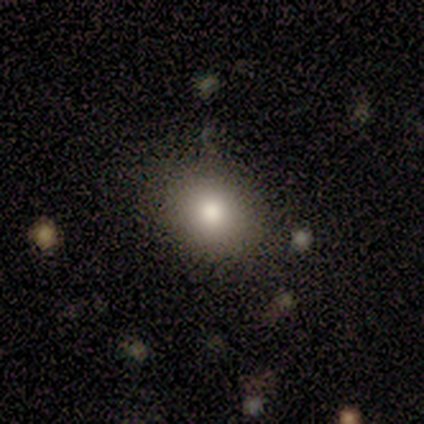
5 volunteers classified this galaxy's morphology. This is clearly a smooth galaxy (100%). How rounded: likely round (60%). Merging: clearly none (80%).